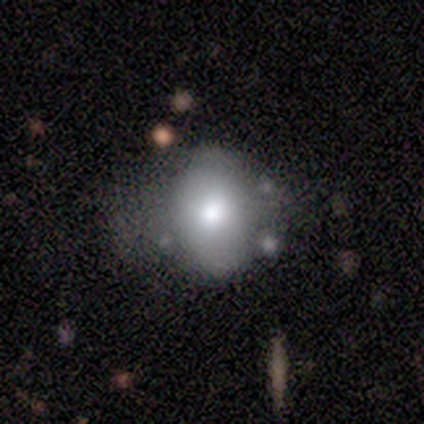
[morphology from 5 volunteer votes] type=smooth (80%); roundness=round (75%); merging=minor disturbance (60%).